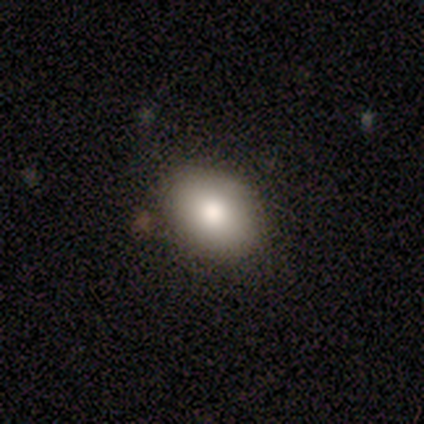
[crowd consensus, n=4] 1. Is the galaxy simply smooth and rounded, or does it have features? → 75% smooth, 25% star or artifact, 0% featured or disk.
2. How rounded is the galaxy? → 100% in between, 0% round, 0% cigar-shaped.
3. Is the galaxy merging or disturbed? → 67% none, 33% minor disturbance, 0% major disturbance, 0% merger.